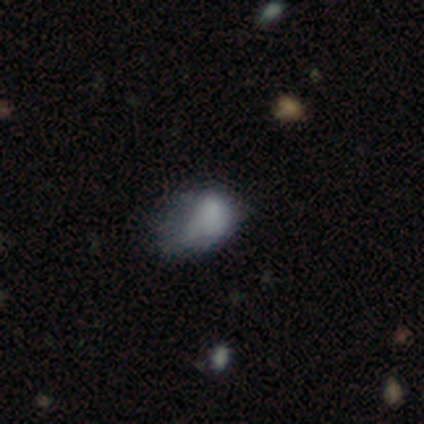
Smooth or featured: smooth — 74% (featured or disk — 16%)
How rounded: in between — 93% (round — 7%)
Merging: minor disturbance — 44% (tied with major disturbance — 44%)